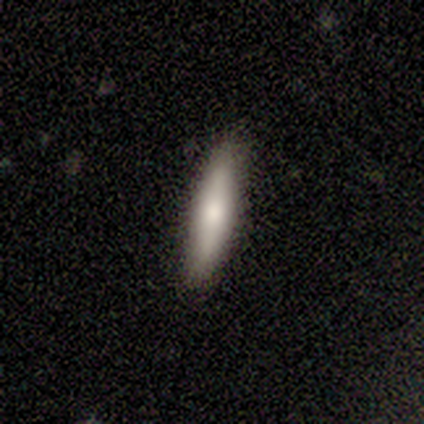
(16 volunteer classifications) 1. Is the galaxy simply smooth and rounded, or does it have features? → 81% smooth, 12% featured or disk, 6% star or artifact.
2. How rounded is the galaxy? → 85% cigar-shaped, 15% in between, 0% round.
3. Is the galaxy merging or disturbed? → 93% none, 7% minor disturbance, 0% major disturbance, 0% merger.